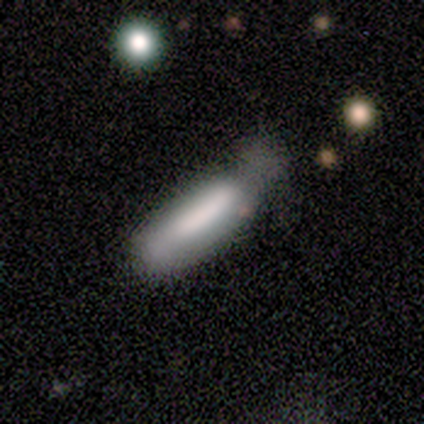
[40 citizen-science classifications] Smooth or featured: smooth — 80% (featured or disk — 10%)
How rounded: cigar-shaped — 78% (in between — 22%)
Merging: none — 39% (minor disturbance — 36%)